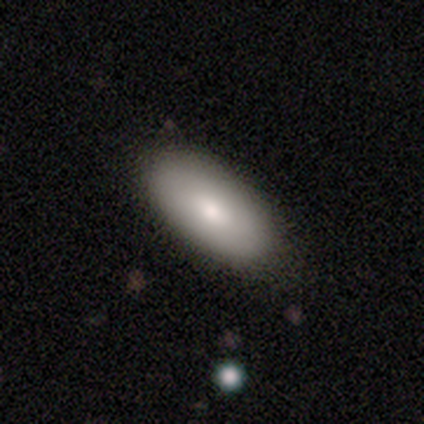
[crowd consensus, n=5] smooth-or-featured: smooth: 80% | featured or disk: 20% | star or artifact: 0%
  how-rounded: in between: 75% | cigar-shaped: 25% | round: 0%
  merging: none: 60% | minor disturbance: 40% | major disturbance: 0% | merger: 0%